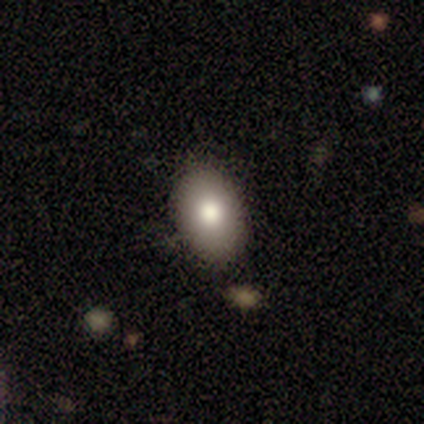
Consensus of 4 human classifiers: Q: Smooth or featured?
A: smooth (75%); runner-up: star or artifact (25%)
Q: How rounded?
A: in between (100%)
Q: Merging?
A: none (100%)